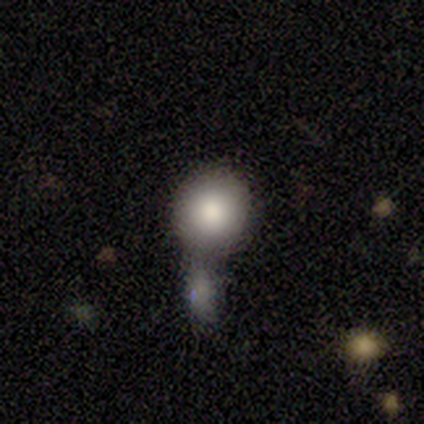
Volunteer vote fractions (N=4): smooth_or_featured: smooth (p=0.50) [tied with: featured or disk p=0.50]
how_rounded: round (p=1.00)
merging: none (p=1.00)